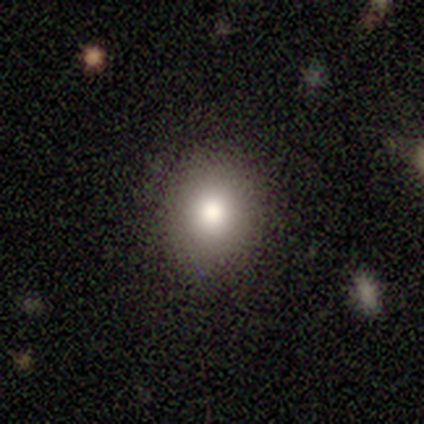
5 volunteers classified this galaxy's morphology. Smooth or featured: smooth — 80% (featured or disk — 20%)
How rounded: round — 50% (tied with in between — 50%)
Merging: none — 100%